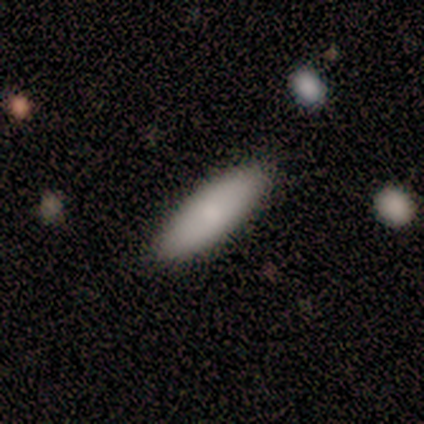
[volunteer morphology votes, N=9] Volunteers were most divided on "how rounded": in between: 88%, cigar-shaped: 12%, round: 0%. More confident: smooth or featured — smooth (89%); merging — none (88%).